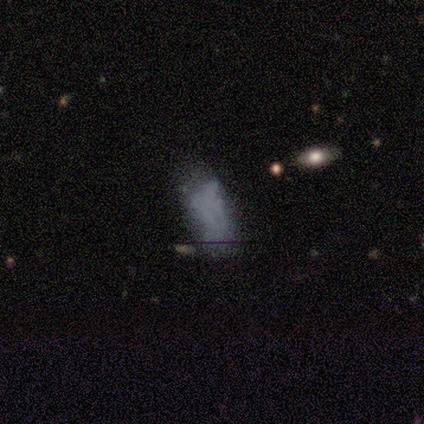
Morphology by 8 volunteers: smooth 38% (tied), featured or disk 38% (tied), star or artifact 25%. Down the decision tree: how rounded — in between (100%); merging — minor disturbance (50%).